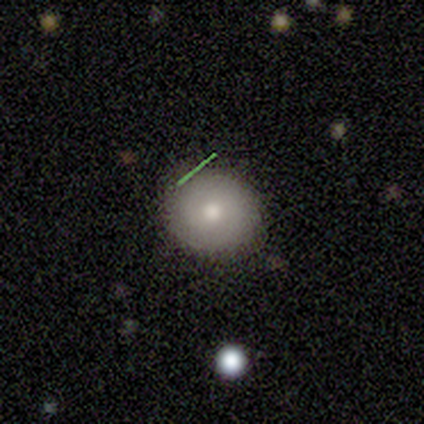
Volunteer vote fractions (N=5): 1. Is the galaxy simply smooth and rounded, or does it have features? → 80% smooth, 20% featured or disk, 0% star or artifact.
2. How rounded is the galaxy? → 75% round, 25% in between, 0% cigar-shaped.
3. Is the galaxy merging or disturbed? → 100% none, 0% minor disturbance, 0% major disturbance, 0% merger.